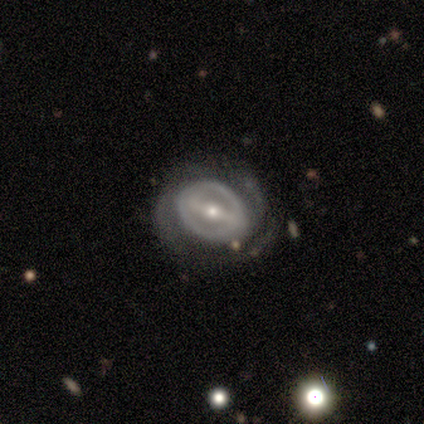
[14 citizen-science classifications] Smooth or featured? 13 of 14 (93%) said featured or disk. Edge-on disk? 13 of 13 (100%) said no. Bar? 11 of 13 (85%) said strong. Spiral arms? 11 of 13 (85%) said yes. Spiral winding? 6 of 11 (55%) said tight. Spiral arm count? 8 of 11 (73%) said 2. Bulge size? 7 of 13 (54%) said moderate. Merging? 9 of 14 (64%) said none.